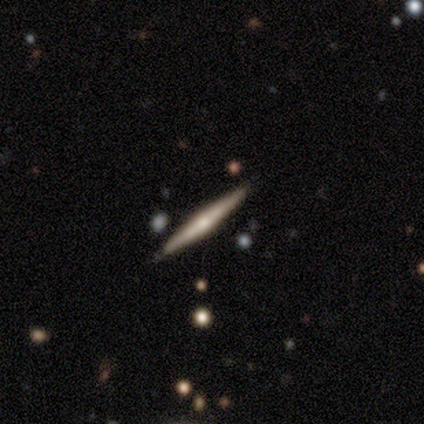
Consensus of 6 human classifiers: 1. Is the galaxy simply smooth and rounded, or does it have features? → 83% featured or disk, 17% star or artifact, 0% smooth.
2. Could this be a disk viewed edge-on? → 100% yes, 0% no.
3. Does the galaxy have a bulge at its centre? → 100% rounded, 0% boxy, 0% none.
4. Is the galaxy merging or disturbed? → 60% none, 40% minor disturbance, 0% major disturbance, 0% merger.